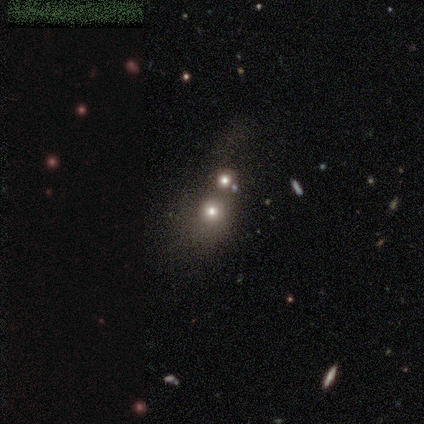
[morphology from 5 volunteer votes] This appears to be a smooth galaxy with no disk features (60%) that is round (67%). Merging: merger (67%).